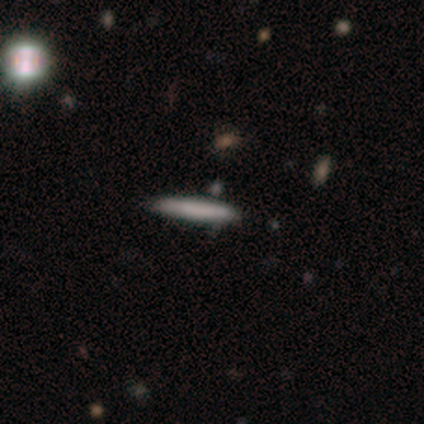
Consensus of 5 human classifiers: smooth-or-featured: smooth: 40% (tied) | featured or disk: 40% (tied) | star or artifact: 20%
  how-rounded: cigar-shaped: 100% | round: 0% | in between: 0%
  merging: none: 75% | minor disturbance: 25% | major disturbance: 0% | merger: 0%